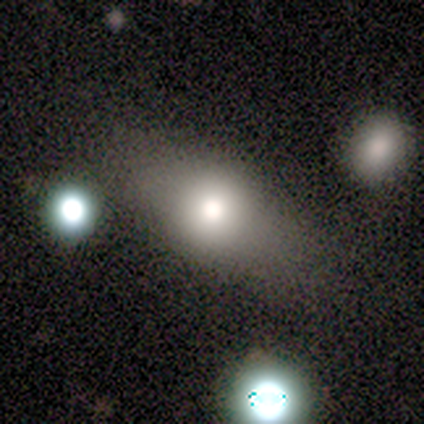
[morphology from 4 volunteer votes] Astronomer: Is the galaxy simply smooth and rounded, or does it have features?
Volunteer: smooth — 100%.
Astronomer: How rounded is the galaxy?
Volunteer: round — 50%, tied with in between at 50%.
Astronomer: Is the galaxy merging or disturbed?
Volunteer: none — 50%, tied with minor disturbance at 50%.